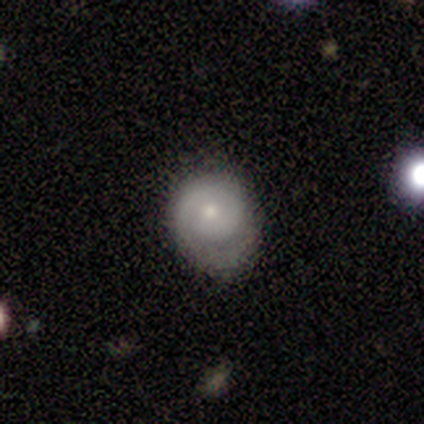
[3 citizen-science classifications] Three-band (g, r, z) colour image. It shows a featured or disk galaxy (67%) with a weak bar (50%, tied with no), 1 (50%, tied with can't tell) tight (100%) spiral arms (100%) and a moderate central bulge (50%, tied with small). Merging: minor disturbance (67%).